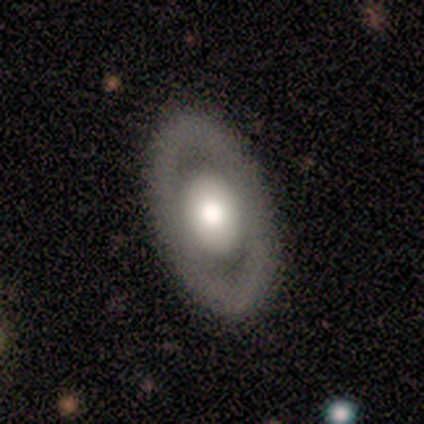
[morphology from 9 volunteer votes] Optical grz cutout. It shows a featured or disk galaxy (100%) with no bar (89%), no spiral arms (100%) and a large central bulge (56%). Merging: none (100%).